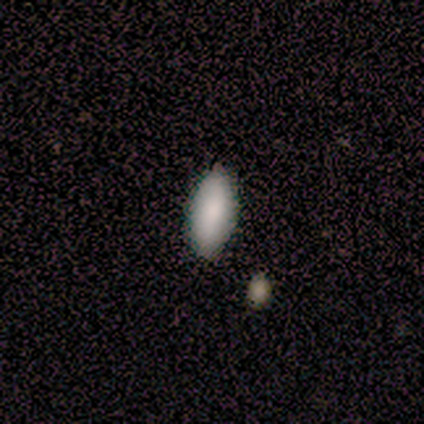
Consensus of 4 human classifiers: Smooth or featured?
  - smooth: 50% * (tied)
  - star or artifact: 50% * (tied)
  - featured or disk: 0%
How rounded?
  - in between: 100% *
  - round: 0%
  - cigar-shaped: 0%
Merging?
  - none: 100% *
  - minor disturbance: 0%
  - major disturbance: 0%
  - merger: 0%